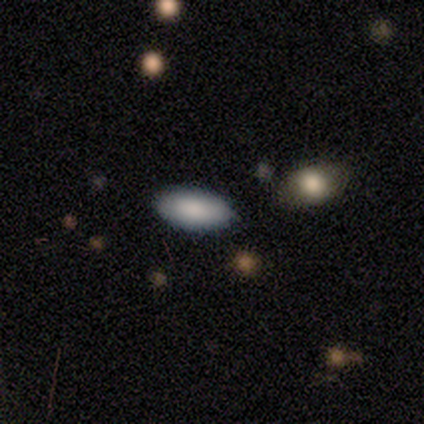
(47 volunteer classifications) A smooth galaxy with no disk features (94%) that is in between round and cigar-shaped (95%).

Vote fractions:
- Smooth or featured? smooth: 94% / featured or disk: 6% / star or artifact: 0%
- How rounded? in between: 95% / round: 2% / cigar-shaped: 2%
- Merging? none: 91% / minor disturbance: 4% / major disturbance: 2% / merger: 2%